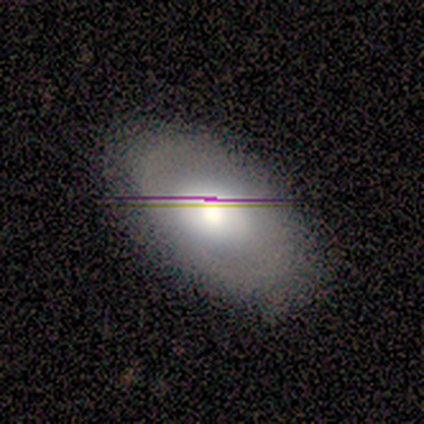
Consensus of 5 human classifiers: A smooth galaxy with no disk features (60%) that is in between round and cigar-shaped (67%).

Vote fractions:
- Smooth or featured? smooth: 60% / star or artifact: 40% / featured or disk: 0%
- How rounded? in between: 67% / round: 33% / cigar-shaped: 0%
- Merging? none: 100% / minor disturbance: 0% / major disturbance: 0% / merger: 0%